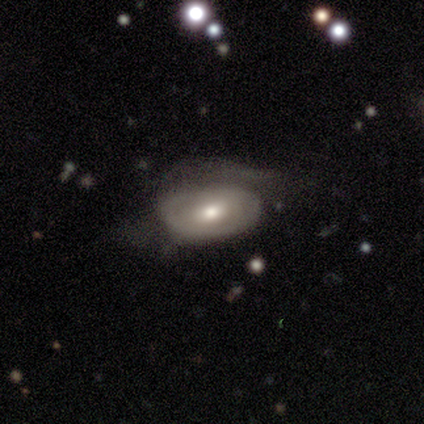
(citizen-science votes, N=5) Smooth or featured: featured or disk — 80% (smooth — 20%)
Edge-on disk: no — 100%
Bar: no — 75% (weak — 25%)
Spiral arms: no — 100%
Bulge size: small — 50% (large — 25%)
Merging: major disturbance — 60% (none — 20%)